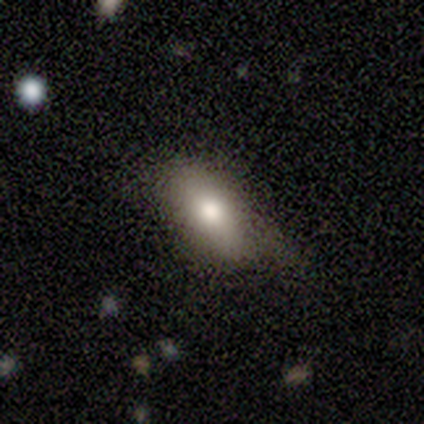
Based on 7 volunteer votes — This appears to be a smooth galaxy with no disk features (86%) that is in between round and cigar-shaped (100%). Merging: none (57%).